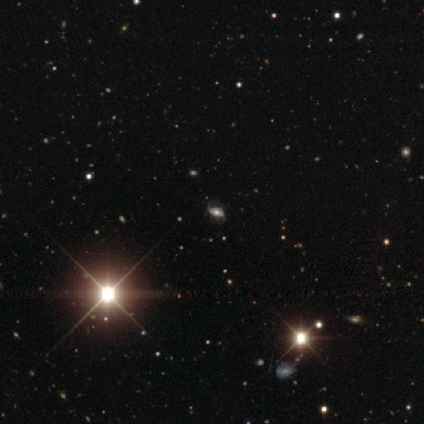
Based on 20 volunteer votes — This appears to be a featured or disk galaxy (55%) with no bar (60%), 2 (86%) medium (57%) spiral arms (70%) and a moderate central bulge (50%). Merging: none (67%).